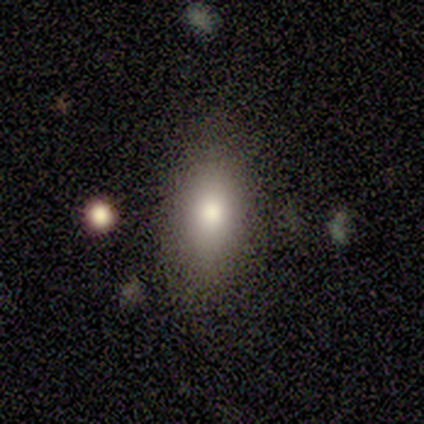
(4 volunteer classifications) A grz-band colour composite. It shows a smooth galaxy with no disk features (100%) that is in between round and cigar-shaped (100%). Merging: minor disturbance (50%).